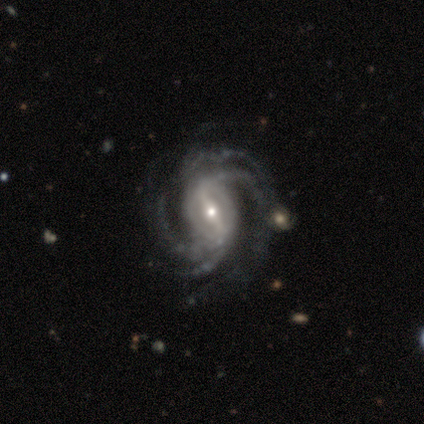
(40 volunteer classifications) Morphology: type=featured or disk (92%); edge-on=no (100%); bar=strong (86%); spiral arms=yes (100%); winding=medium (57%); arm count=4 (65%); bulge=small (49%); merging=none (43%).